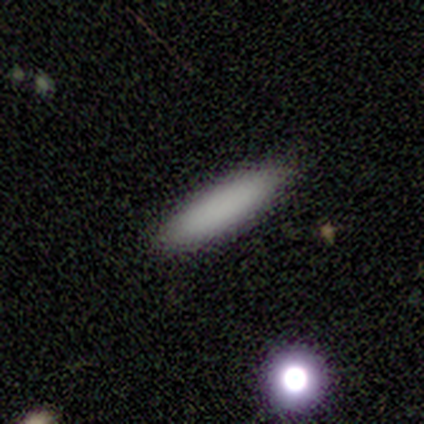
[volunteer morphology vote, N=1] This is clearly a smooth galaxy (100%). How rounded: clearly cigar-shaped (100%). Merging: clearly none (100%).